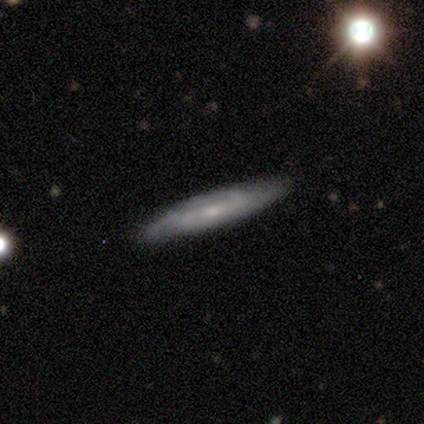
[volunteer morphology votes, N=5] This appears to be a featured or disk galaxy (60%) with no bar (100%), 2 (50%, tied with can't tell) tight (50%, tied with loose) spiral arms (67%) and a small central bulge (67%). Merging: none (100%).